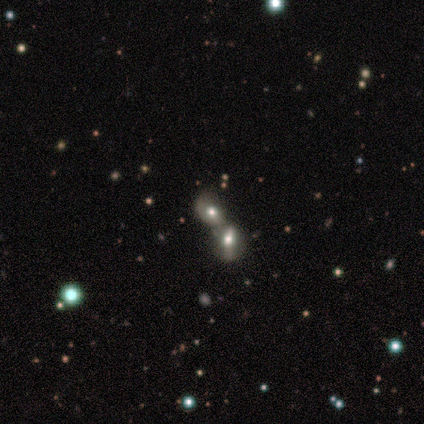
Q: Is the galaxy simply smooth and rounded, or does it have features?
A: featured or disk — 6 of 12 (50%).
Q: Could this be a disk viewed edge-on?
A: no — 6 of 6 (100%).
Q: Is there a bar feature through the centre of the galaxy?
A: no — 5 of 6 (83%).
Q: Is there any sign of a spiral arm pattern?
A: no — 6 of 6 (100%).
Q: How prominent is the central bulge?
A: moderate — 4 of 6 (67%).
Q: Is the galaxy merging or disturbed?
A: merger — 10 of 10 (100%).